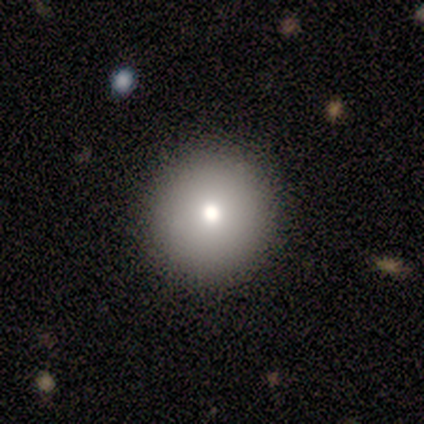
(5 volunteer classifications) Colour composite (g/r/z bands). It shows a smooth galaxy with no disk features (80%) that is round (50%, tied with in between). Merging: none (75%).